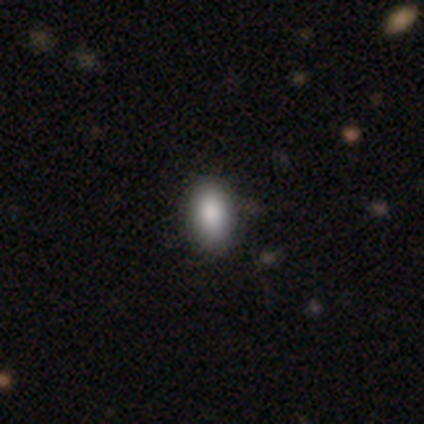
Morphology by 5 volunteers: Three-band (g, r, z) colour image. It shows a smooth galaxy with no disk features (100%) that is in between round and cigar-shaped (100%). Merging: none (100%).